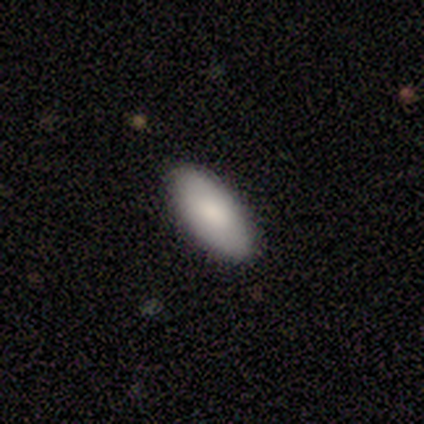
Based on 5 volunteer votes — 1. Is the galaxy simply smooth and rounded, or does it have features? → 60% smooth, 40% star or artifact, 0% featured or disk.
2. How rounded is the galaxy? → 100% in between, 0% round, 0% cigar-shaped.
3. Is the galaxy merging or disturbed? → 100% none, 0% minor disturbance, 0% major disturbance, 0% merger.